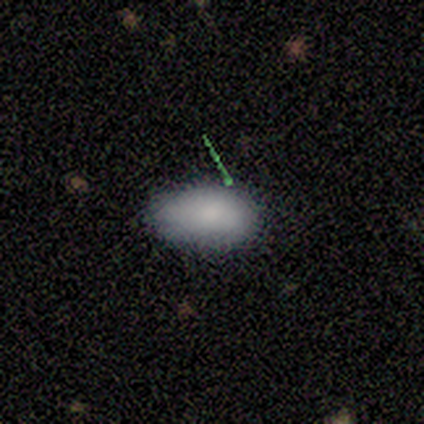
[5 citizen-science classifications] A smooth galaxy with no disk features (80%) that is in between round and cigar-shaped (100%).

Vote fractions:
- Smooth or featured? smooth: 80% / star or artifact: 20% / featured or disk: 0%
- How rounded? in between: 100% / round: 0% / cigar-shaped: 0%
- Merging? none: 50% (tied) / minor disturbance: 50% (tied) / major disturbance: 0% / merger: 0%